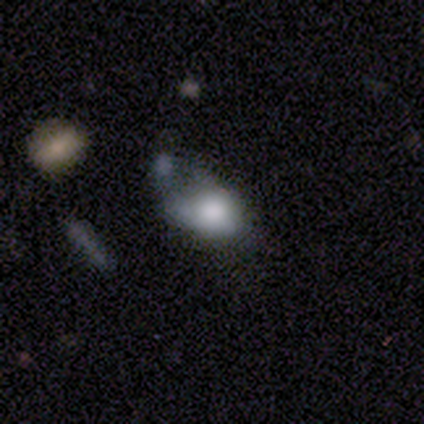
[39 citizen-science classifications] smooth 67%, featured or disk 21%, star or artifact 13%. Down the decision tree: how rounded — in between (58%); merging — major disturbance (35%).